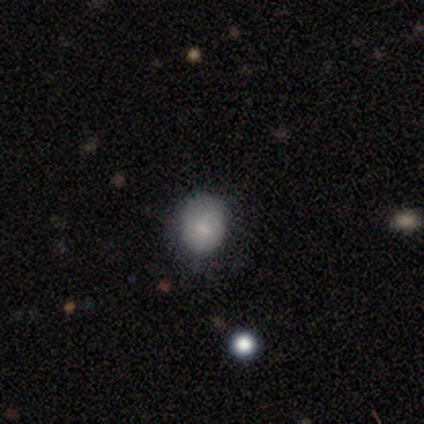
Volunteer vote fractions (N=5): A smooth galaxy with no disk features (80%) that is round (75%). Merging: none (100%).